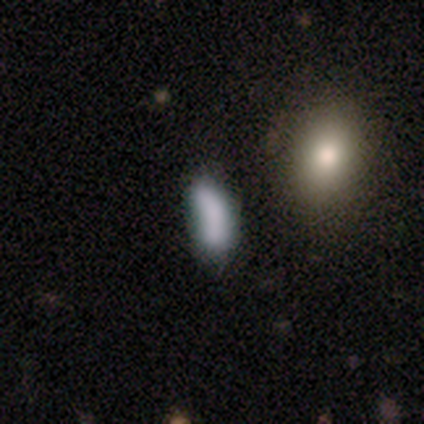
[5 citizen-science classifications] Q: Smooth or featured?
A: smooth (60%); runner-up: featured or disk (20%)
Q: How rounded?
A: in between (67%); runner-up: cigar-shaped (33%)
Q: Merging?
A: none (100%)